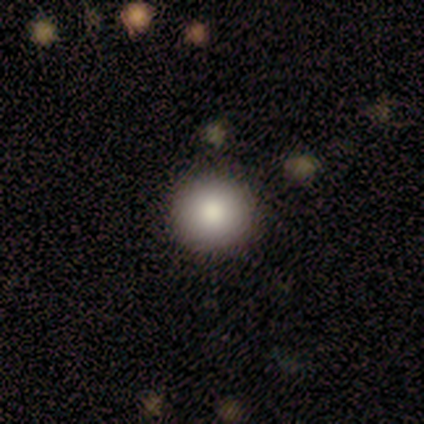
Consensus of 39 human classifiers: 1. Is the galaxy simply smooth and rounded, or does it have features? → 77% smooth, 15% featured or disk, 8% star or artifact.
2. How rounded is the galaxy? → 97% round, 3% in between, 0% cigar-shaped.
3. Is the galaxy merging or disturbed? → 92% none, 8% minor disturbance, 0% major disturbance, 0% merger.